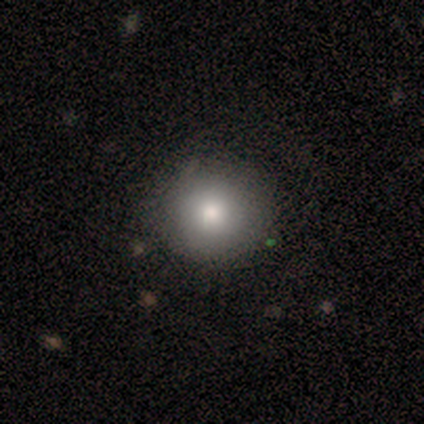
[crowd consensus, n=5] Volunteers were most divided on "smooth or featured": smooth: 60%, featured or disk: 20%, star or artifact: 20%. More confident: how rounded — round (100%); merging — none (100%).